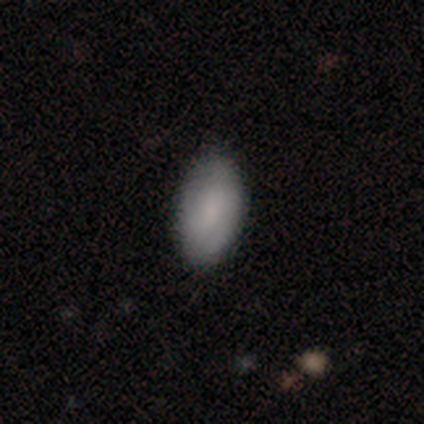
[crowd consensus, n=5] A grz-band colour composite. It shows a smooth galaxy with no disk features (60%) that is in between round and cigar-shaped (100%). Merging: none (100%).